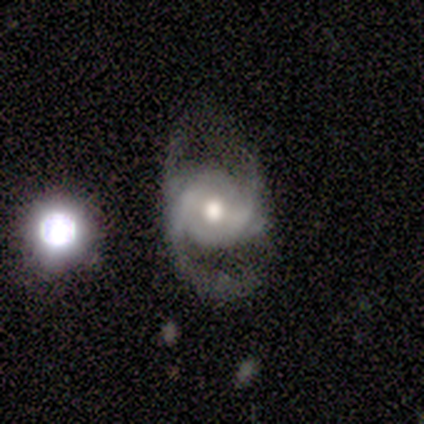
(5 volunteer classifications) This appears to be a featured or disk galaxy (80%) with no bar (75%), 2 (50%) medium (75%) spiral arms (100%) and a moderate central bulge (75%). Merging: major disturbance (60%).